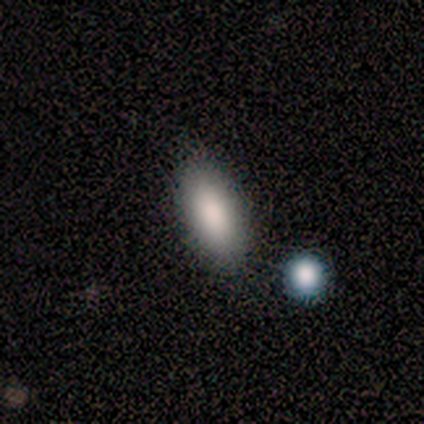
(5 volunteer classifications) smooth 80%, featured or disk 20%, star or artifact 0%. Down the decision tree: how rounded — in between (50%, tied with cigar-shaped); merging — none (60%).